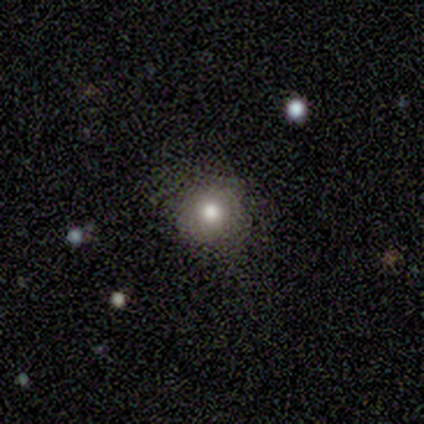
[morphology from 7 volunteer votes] Q: Smooth or featured?
A: smooth (86%); runner-up: star or artifact (14%)
Q: How rounded?
A: round (67%); runner-up: in between (33%)
Q: Merging?
A: none (83%); runner-up: minor disturbance (17%)